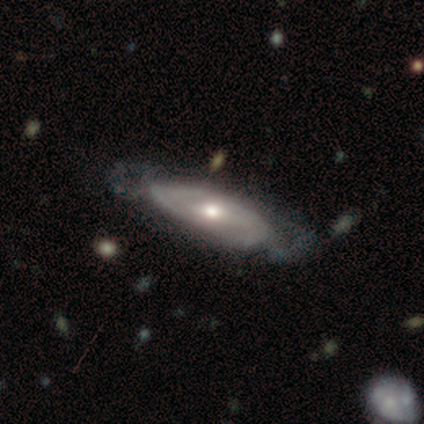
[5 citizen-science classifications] Smooth or featured? featured or disk (100%)
Edge-on disk? no (80%)
Bar? no (100%)
Spiral arms? yes (75%)
Spiral winding? tight (100%)
Spiral arm count? 1 (33%, tied with 3 and can't tell)
Bulge size? moderate (50%)
Merging? none (80%)